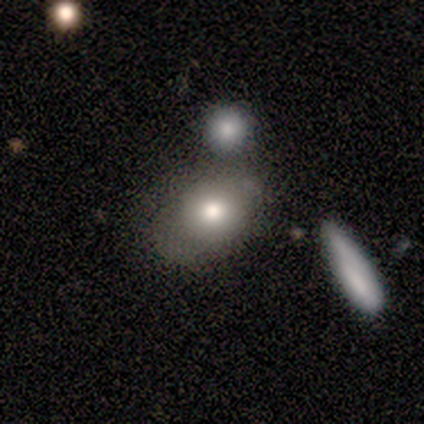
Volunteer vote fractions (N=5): smooth-or-featured: smooth: 60% | featured or disk: 40% | star or artifact: 0%
  how-rounded: in between: 67% | round: 33% | cigar-shaped: 0%
  merging: merger: 60% | none: 20% | minor disturbance: 20% | major disturbance: 0%